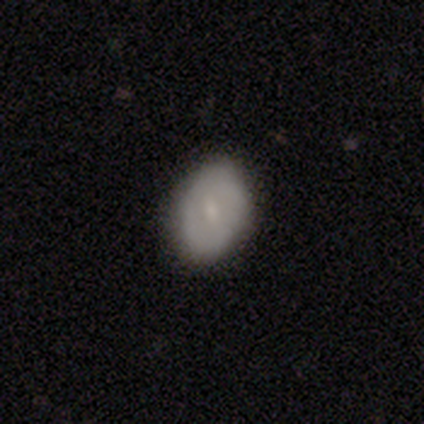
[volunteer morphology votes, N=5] This is clearly a smooth galaxy (80%). How rounded: clearly in between (100%). Merging: clearly none (100%).